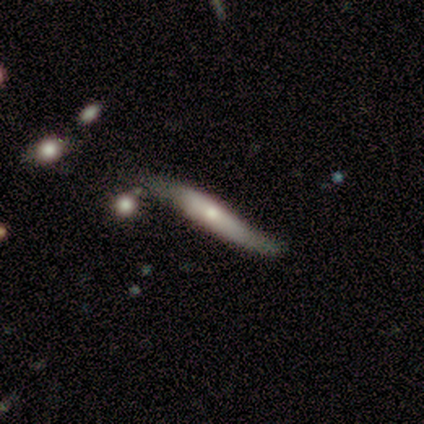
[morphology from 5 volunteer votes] Overall: featured or disk (100%). Edge-on disk: yes (80%). Edge-on bulge: rounded (75%). Merging: none (60%; minor disturbance 20%).